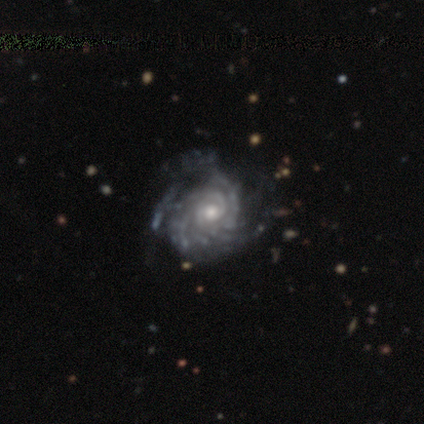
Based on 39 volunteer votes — Smooth or featured: featured or disk — 97% (star or artifact — 3%)
Edge-on disk: no — 100%
Bar: no — 79% (weak — 16%)
Spiral arms: yes — 95% (no — 5%)
Spiral winding: tight — 89% (medium — 8%)
Spiral arm count: can't tell — 42% (more than 4 — 36%)
Bulge size: moderate — 53% (small — 42%)
Merging: none — 39% (minor disturbance — 29%)